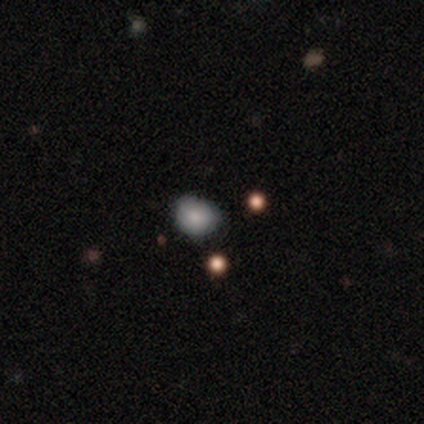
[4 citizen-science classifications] smooth 75%, star or artifact 25%, featured or disk 0%. Down the decision tree: how rounded — round (67%); merging — minor disturbance (67%).